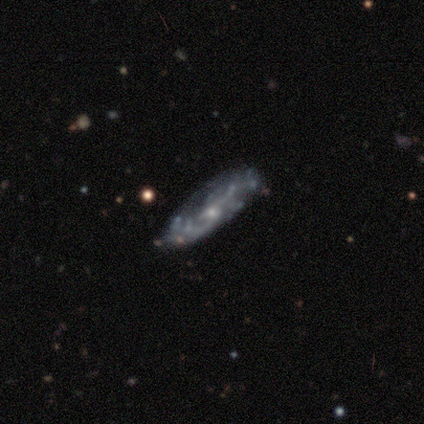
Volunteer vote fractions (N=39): smooth-or-featured: featured or disk: 92% | star or artifact: 5% | smooth: 3%
  disk-edge-on: no: 92% | yes: 8%
    bar: no: 67% | weak: 27% | strong: 6%
    has-spiral-arms: yes: 82% | no: 18%
      spiral-winding: loose: 41% | medium: 33% | tight: 26%
      spiral-arm-count: 2: 67% | can't tell: 30% | 4: 4% | 1: 0% | 3: 0% | more than 4: 0%
    bulge-size: small: 70% | moderate: 24% | none: 6% | dominant: 0% | large: 0%
  merging: none: 70% | minor disturbance: 22% | major disturbance: 8% | merger: 0%